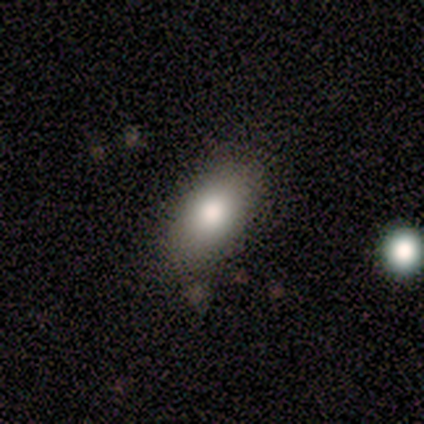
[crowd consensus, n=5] Volunteers were most divided on "smooth or featured": smooth: 80%, star or artifact: 20%, featured or disk: 0%. More confident: how rounded — in between (100%); merging — none (100%).